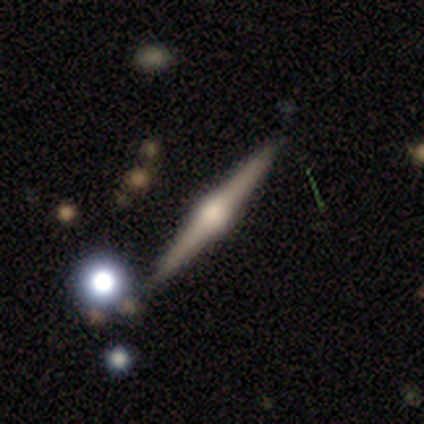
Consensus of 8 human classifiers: featured or disk 88%, star or artifact 12%, smooth 0%. Down the decision tree: edge-on disk — yes (100%); edge-on bulge — rounded (100%); merging — none (86%).